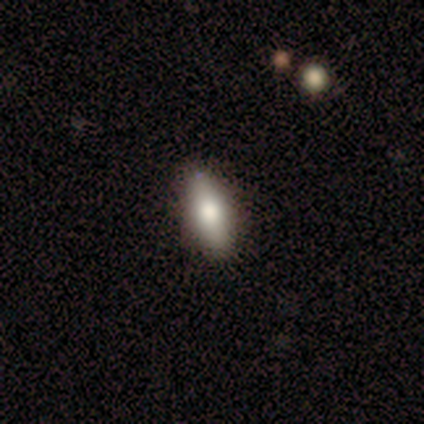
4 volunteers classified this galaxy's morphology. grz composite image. It shows a smooth galaxy with no disk features (75%) that is in between round and cigar-shaped (100%). Merging: none (75%).